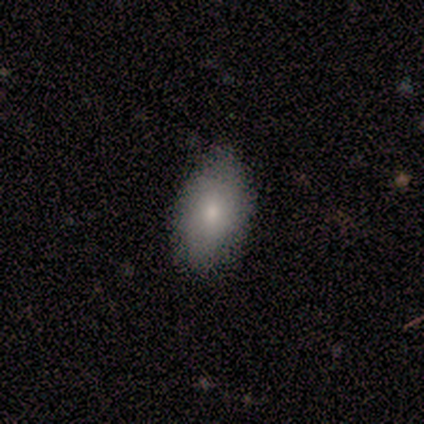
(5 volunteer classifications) A smooth galaxy with no disk features (100%) that is in between round and cigar-shaped (100%).

Vote fractions:
- Smooth or featured? smooth: 100% / featured or disk: 0% / star or artifact: 0%
- How rounded? in between: 100% / round: 0% / cigar-shaped: 0%
- Merging? none: 60% / minor disturbance: 40% / major disturbance: 0% / merger: 0%